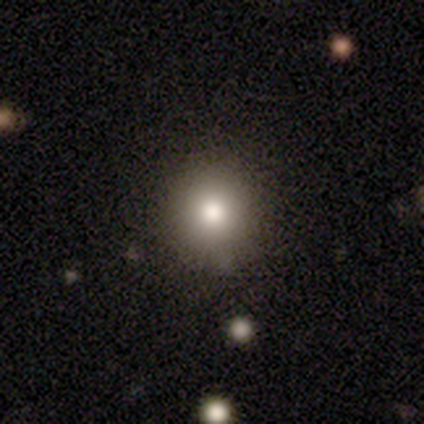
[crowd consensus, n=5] This is clearly a smooth galaxy (80%). How rounded: likely round (75%). Merging: likely none (75%).